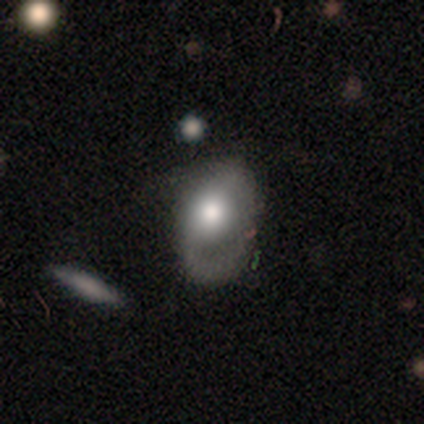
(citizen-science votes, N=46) Smooth or featured: smooth — 61% (featured or disk — 26%)
How rounded: in between — 89% (round — 11%)
Merging: major disturbance — 38% (none — 32%)